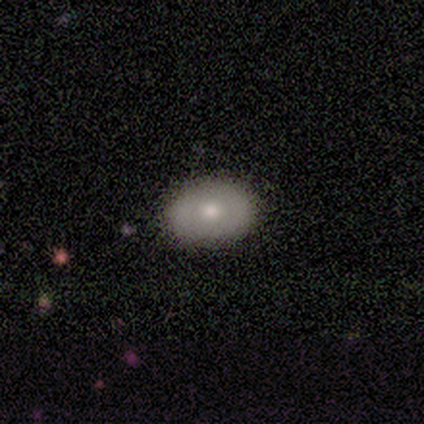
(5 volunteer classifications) This appears to be a smooth galaxy with no disk features (80%) that is in between round and cigar-shaped (100%). Merging: none (100%).